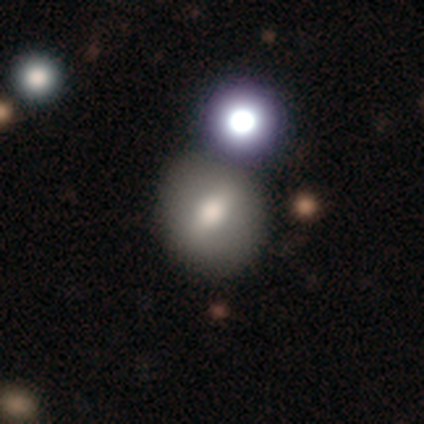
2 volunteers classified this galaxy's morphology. smooth 50% (tied), featured or disk 50% (tied), star or artifact 0%. Down the decision tree: how rounded — round (100%); merging — none (100%).